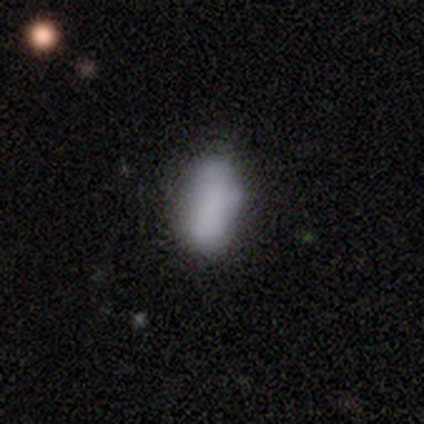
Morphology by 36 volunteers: A smooth galaxy with no disk features (78%) that is in between round and cigar-shaped (89%). Merging: none (68%).